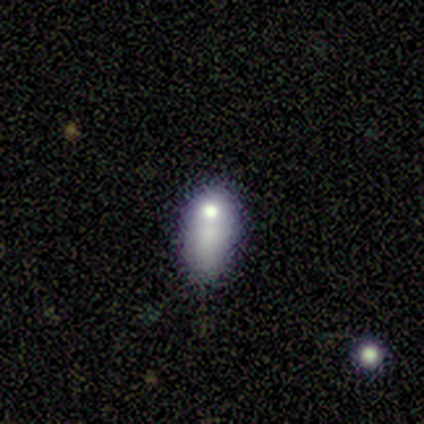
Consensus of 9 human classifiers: smooth_or_featured: smooth (p=0.44) [tied with: featured or disk p=0.44]
how_rounded: in between (p=0.75) [alt: cigar-shaped p=0.25]
merging: minor disturbance (p=0.38) [alt: major disturbance p=0.25]